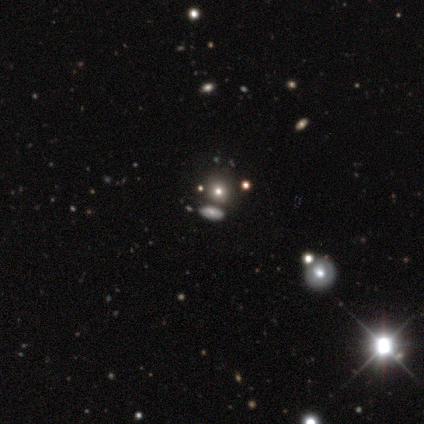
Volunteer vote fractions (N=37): A smooth galaxy with no disk features (46%) that is round (53%). Merging: none (74%).